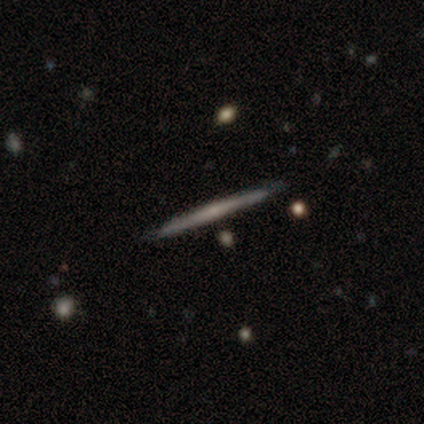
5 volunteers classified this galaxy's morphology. This appears to be a featured or disk galaxy (80%) viewed edge-on (100%) with no central bulge (75%). Merging: none (100%).